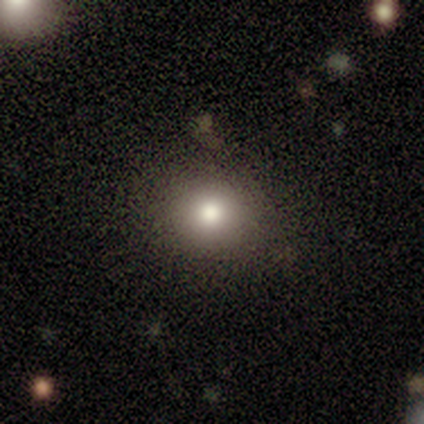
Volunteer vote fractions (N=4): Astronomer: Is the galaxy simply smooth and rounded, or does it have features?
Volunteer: smooth — 100%.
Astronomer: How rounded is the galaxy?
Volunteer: round — 100%.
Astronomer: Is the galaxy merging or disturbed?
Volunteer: none — 100%.